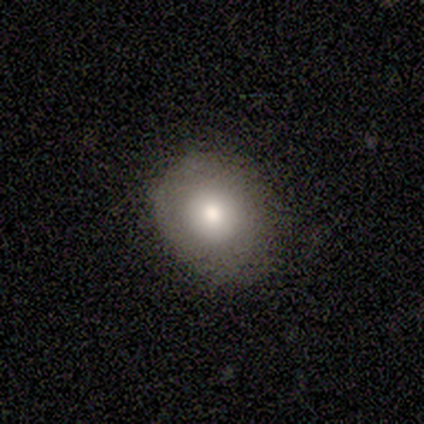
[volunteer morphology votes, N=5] This appears to be a smooth galaxy with no disk features (80%) that is round (75%). Merging: none (100%).